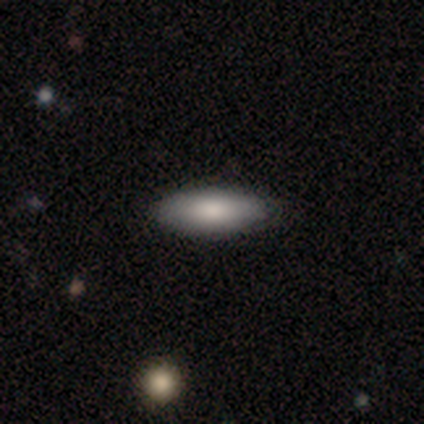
Volunteers were most divided on "how rounded" (2-way tie): in between: 50%, cigar-shaped: 50%, round: 0%. More confident: merging — none (100%); smooth or featured — smooth (80%).